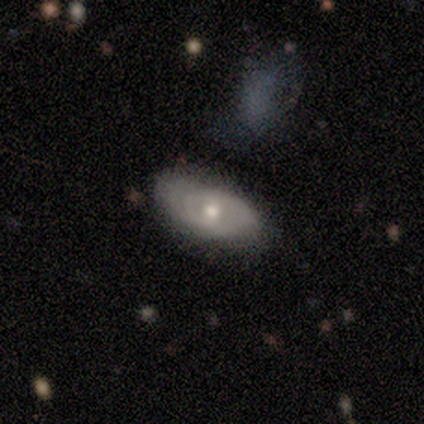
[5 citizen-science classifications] This appears to be a smooth galaxy with no disk features (60%) that is in between round and cigar-shaped (100%). Merging: none (80%).